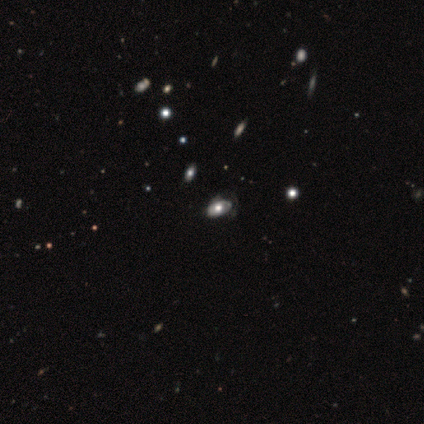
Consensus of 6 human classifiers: Overall: featured or disk (50%; smooth 33%). Edge-on disk: no (100%). Bar: no (67%; weak 33%). Spiral arms: no (67%; yes 33%). Bulge size: large (33%, tied with moderate and small). Merging: minor disturbance (40%, tied with major disturbance).